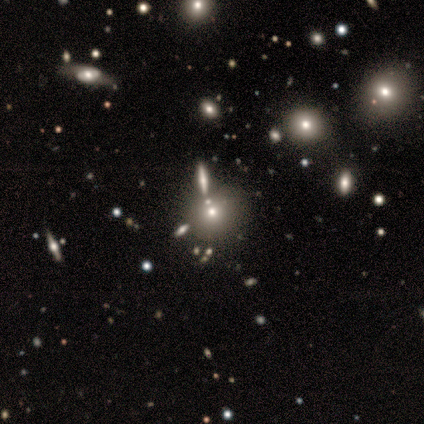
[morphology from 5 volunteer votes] Smooth or featured?
  - smooth: 40% * (tied)
  - star or artifact: 40% * (tied)
  - featured or disk: 20%
How rounded?
  - round: 100% *
  - in between: 0%
  - cigar-shaped: 0%
Merging?
  - none: 67% *
  - minor disturbance: 33%
  - major disturbance: 0%
  - merger: 0%